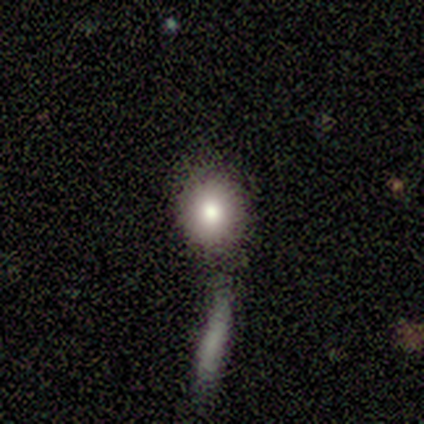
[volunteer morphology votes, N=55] smooth-or-featured: smooth: 76% | featured or disk: 13% | star or artifact: 11%
  how-rounded: round: 76% | in between: 24% | cigar-shaped: 0%
  merging: none: 51% | merger: 35% | minor disturbance: 10% | major disturbance: 4%